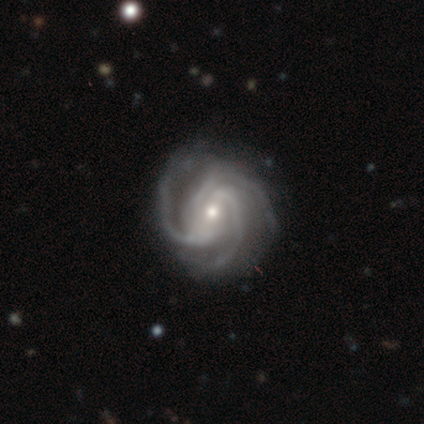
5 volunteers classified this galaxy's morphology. Smooth or featured? featured or disk (100%)
Edge-on disk? no (80%)
Bar? weak (75%)
Spiral arms? yes (100%)
Spiral winding? medium (100%)
Spiral arm count? 3 (75%)
Bulge size? moderate (50%, tied with small)
Merging? none (100%)